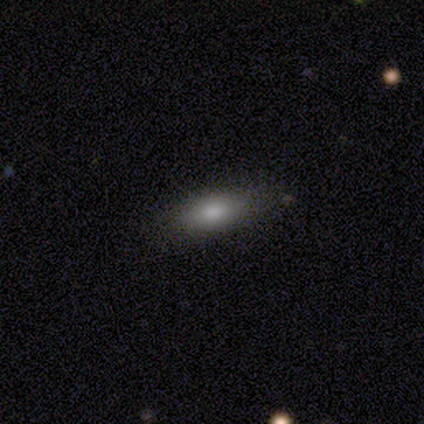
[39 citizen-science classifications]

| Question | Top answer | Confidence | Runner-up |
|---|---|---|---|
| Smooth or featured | smooth | 74% | featured or disk (15%) |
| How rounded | in between | 86% | cigar-shaped (14%) |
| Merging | none | 77% | minor disturbance (20%) |